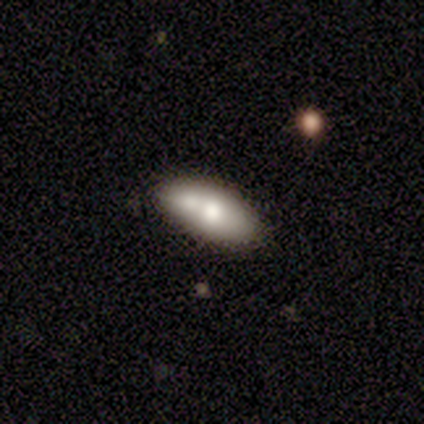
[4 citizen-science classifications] Q: Smooth or featured?
A: smooth (50%); tied with: featured or disk (50%)
Q: How rounded?
A: in between (50%); tied with: cigar-shaped (50%)
Q: Merging?
A: none (50%); tied with: minor disturbance (50%)